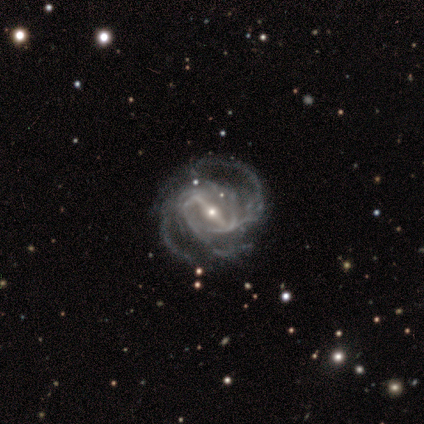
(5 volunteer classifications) featured or disk 80%, star or artifact 20%, smooth 0%. Down the decision tree: edge-on disk — no (100%); bar — strong (100%); spiral arms — yes (100%); spiral arm count — 3 (50%); spiral winding — tight (50%, tied with medium); bulge size — small (100%); merging — none (50%, tied with minor disturbance).